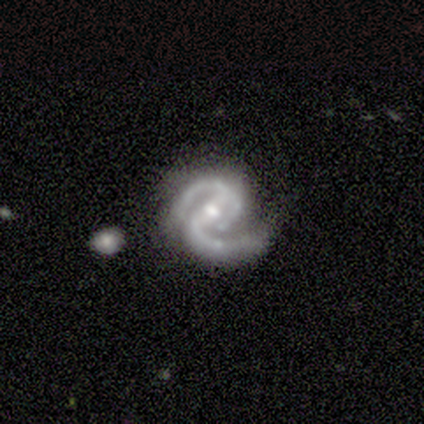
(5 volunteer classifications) Smooth or featured?
  - featured or disk: 60% *
  - smooth: 20%
  - star or artifact: 20%
Edge-on disk?
  - no: 100% *
  - yes: 0%
Bar?
  - weak: 67% *
  - no: 33%
  - strong: 0%
Spiral arms?
  - yes: 100% *
  - no: 0%
Spiral winding?
  - tight: 67% *
  - medium: 33%
  - loose: 0%
Spiral arm count?
  - 2: 100% *
  - 1: 0%
  - 3: 0%
  - 4: 0%
  - more than 4: 0%
  - can't tell: 0%
Bulge size?
  - small: 100% *
  - dominant: 0%
  - large: 0%
  - moderate: 0%
  - none: 0%
Merging?
  - none: 75% *
  - merger: 25%
  - minor disturbance: 0%
  - major disturbance: 0%